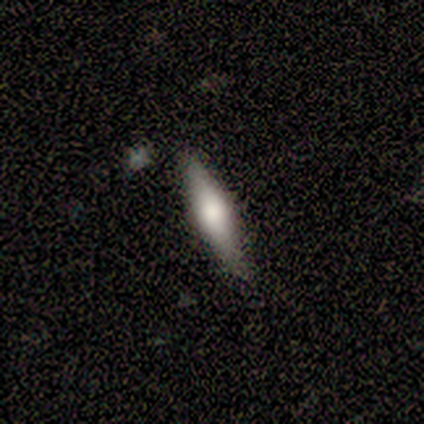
Overall: smooth (60%; featured or disk 40%). How rounded: cigar-shaped (100%). Merging: none (80%).